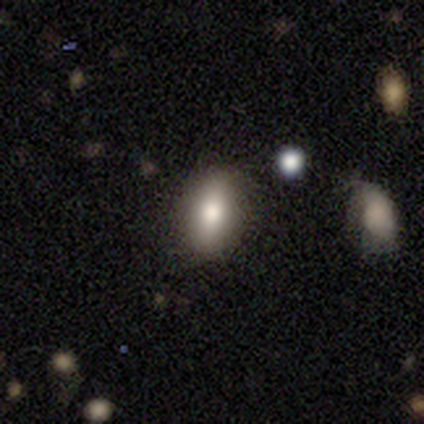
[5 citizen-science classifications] Smooth or featured? 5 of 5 (100%) said smooth. How rounded? 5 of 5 (100%) said in between. Merging? 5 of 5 (100%) said none.